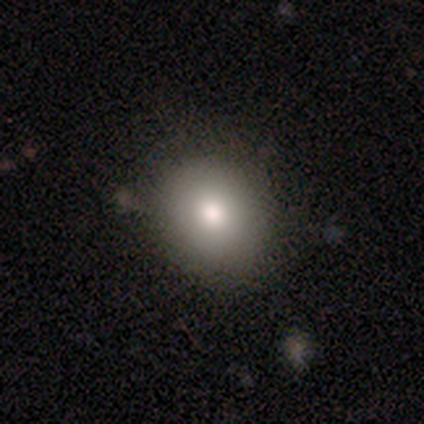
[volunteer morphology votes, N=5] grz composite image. It shows a smooth galaxy with no disk features (60%) that is in between round and cigar-shaped (67%). Merging: none (100%).